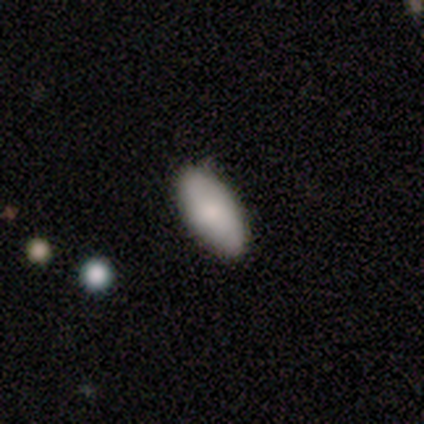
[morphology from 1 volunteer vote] Smooth or featured: featured or disk — 100%
Edge-on disk: no — 100%
Bar: no — 100%
Spiral arms: yes — 100%
Spiral winding: medium — 100%
Spiral arm count: 2 — 100%
Bulge size: moderate — 100%
Merging: minor disturbance — 100%